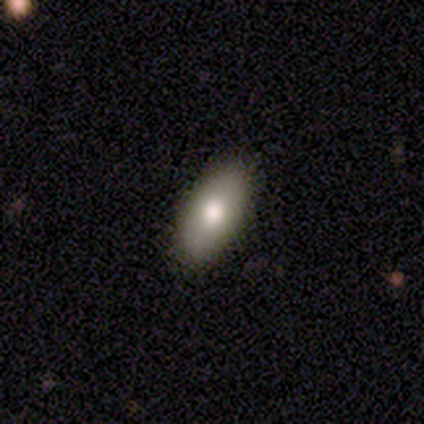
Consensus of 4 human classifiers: A smooth galaxy with no disk features (50%, tied with featured or disk) that is in between round and cigar-shaped (100%). Merging: none (75%).